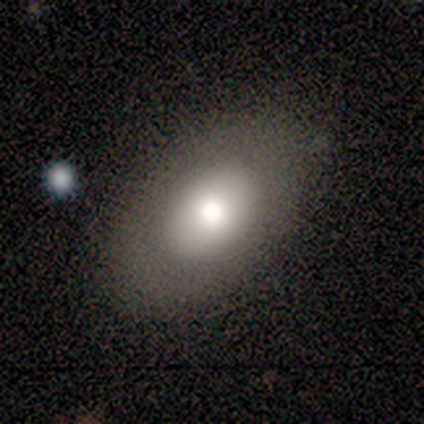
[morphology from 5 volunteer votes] Q: Smooth or featured?
A: featured or disk (60%); runner-up: smooth (20%)
Q: Edge-on disk?
A: no (100%)
Q: Bar?
A: no (67%); runner-up: strong (33%)
Q: Spiral arms?
A: no (100%)
Q: Bulge size?
A: dominant (33%); tied with: large (33%); moderate (33%)
Q: Merging?
A: none (100%)